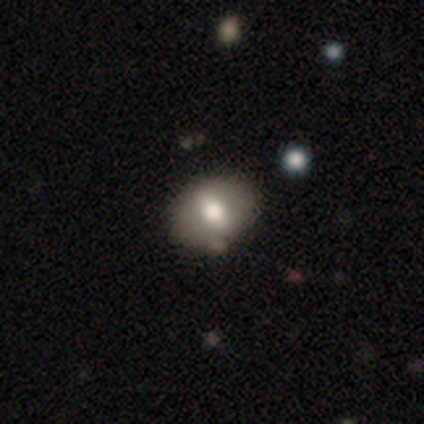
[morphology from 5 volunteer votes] Smooth or featured? smooth (60%)
How rounded? in between (100%)
Merging? minor disturbance (60%)